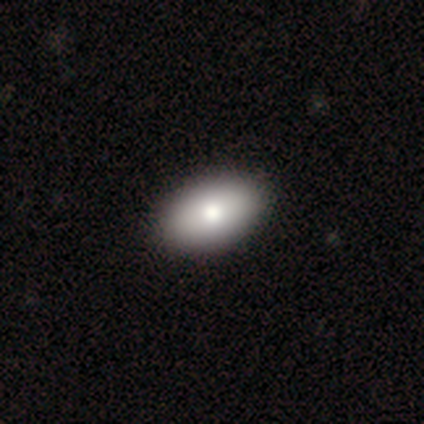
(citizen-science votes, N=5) Smooth or featured? smooth (80%)
How rounded? in between (75%)
Merging? none (100%)